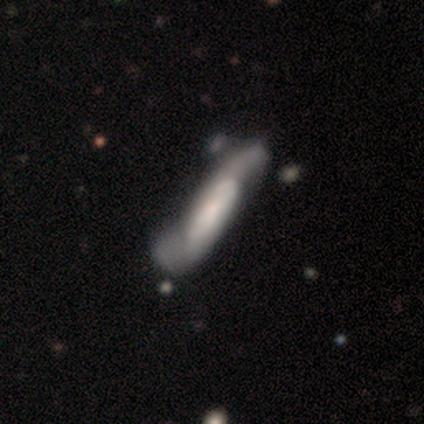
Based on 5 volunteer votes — Smooth or featured: featured or disk — 60% (smooth — 20%)
Edge-on disk: no — 67% (yes — 33%)
Bar: weak — 50% (tied with no — 50%)
Spiral arms: yes — 100%
Spiral winding: medium — 50% (tied with loose — 50%)
Spiral arm count: 1 — 50% (tied with 2 — 50%)
Bulge size: large — 100%
Merging: none — 50% (minor disturbance — 25%)